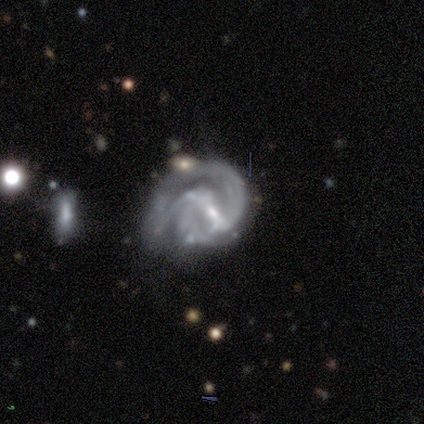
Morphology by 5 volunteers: A featured or disk galaxy (100%) with a strong bar (40%, tied with weak), 2 (100%) medium (60%) spiral arms (100%) and a small central bulge (80%).

Vote fractions:
- Smooth or featured? featured or disk: 100% / smooth: 0% / star or artifact: 0%
- Edge-on disk? no: 100% / yes: 0%
- Bar? strong: 40% (tied) / weak: 40% (tied) / no: 20%
- Spiral arms? yes: 100% / no: 0%
- Spiral winding? medium: 60% / tight: 20% / loose: 20%
- Spiral arm count? 2: 100% / 1: 0% / 3: 0% / 4: 0% / more than 4: 0% / can't tell: 0%
- Bulge size? small: 80% / moderate: 20% / dominant: 0% / large: 0% / none: 0%
- Merging? merger: 40% / none: 20% / minor disturbance: 20% / major disturbance: 20%